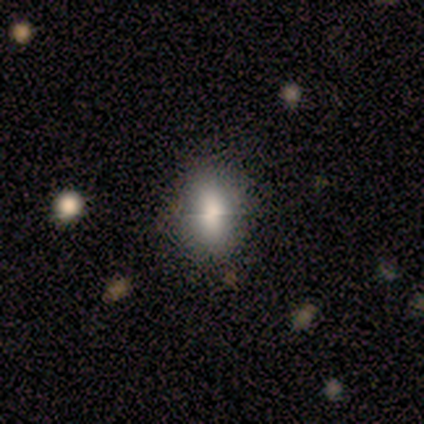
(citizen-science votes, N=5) smooth 100%, featured or disk 0%, star or artifact 0%. Down the decision tree: how rounded — in between (80%); merging — none (60%).